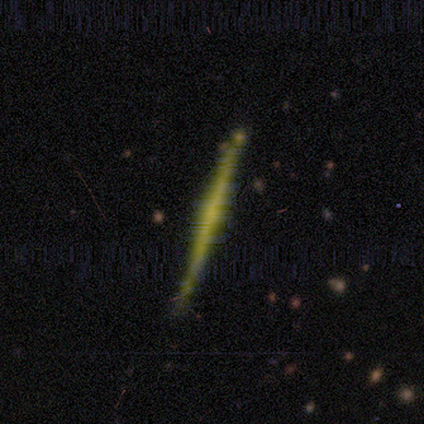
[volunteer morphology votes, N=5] type=featured or disk (60%); edge-on=yes (100%); edge-on bulge=none (67%); merging=none (80%).